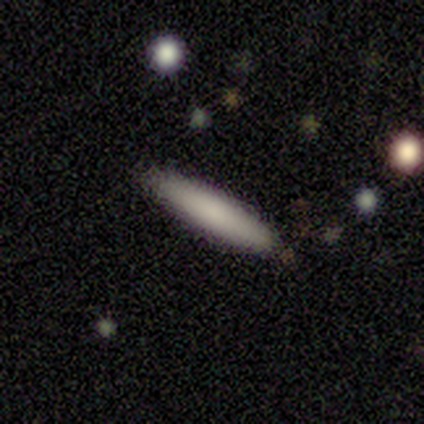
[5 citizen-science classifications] smooth 80%, star or artifact 20%, featured or disk 0%. Down the decision tree: how rounded — in between (50%, tied with cigar-shaped); merging — none (100%).